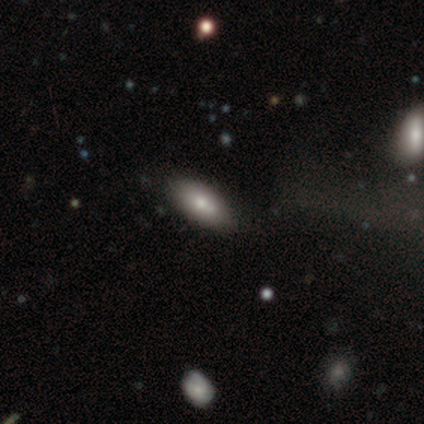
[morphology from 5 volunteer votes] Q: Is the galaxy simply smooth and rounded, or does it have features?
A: smooth — 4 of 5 (80%).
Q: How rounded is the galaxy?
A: in between — 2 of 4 (50%, tied with cigar-shaped).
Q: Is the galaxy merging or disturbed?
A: none — 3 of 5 (60%).